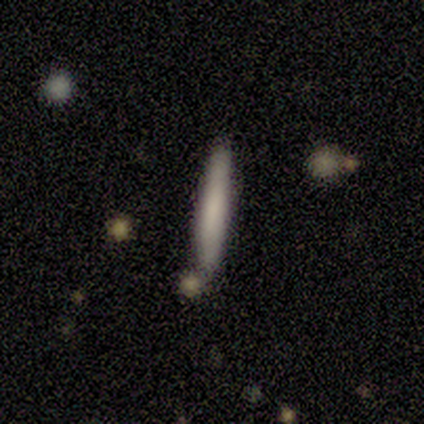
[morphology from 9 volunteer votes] smooth 89%, featured or disk 11%, star or artifact 0%. Down the decision tree: how rounded — cigar-shaped (100%); merging — none (100%).